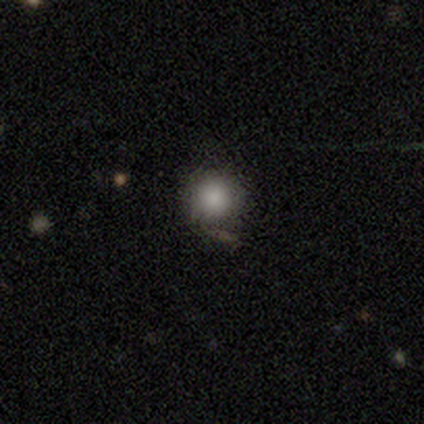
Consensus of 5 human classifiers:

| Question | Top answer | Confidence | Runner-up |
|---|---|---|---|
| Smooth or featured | smooth | 80% | star or artifact (20%) |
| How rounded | round | 100% | — |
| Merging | none | 75% | minor disturbance (25%) |